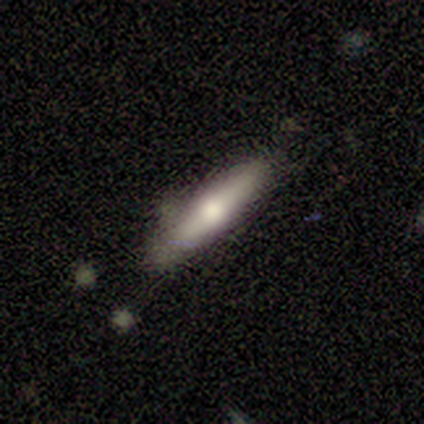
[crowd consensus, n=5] This is clearly a smooth galaxy (80%). How rounded: likely cigar-shaped (75%). Merging: likely none (75%).